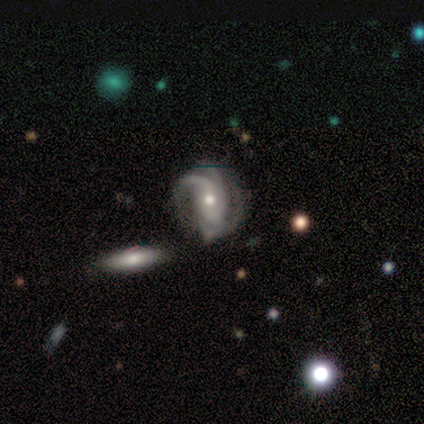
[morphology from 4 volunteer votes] Smooth or featured? featured or disk (75%)
Edge-on disk? no (100%)
Bar? no (67%)
Spiral arms? yes (67%)
Spiral winding? tight (50%, tied with medium)
Spiral arm count? 2 (50%, tied with 4)
Bulge size? small (67%)
Merging? none (50%)